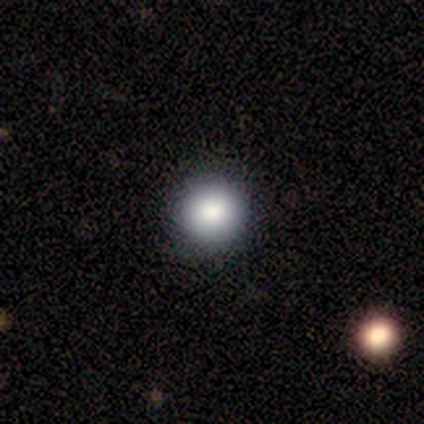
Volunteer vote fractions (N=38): A smooth galaxy with no disk features (89%) that is round (91%). Merging: none (83%).